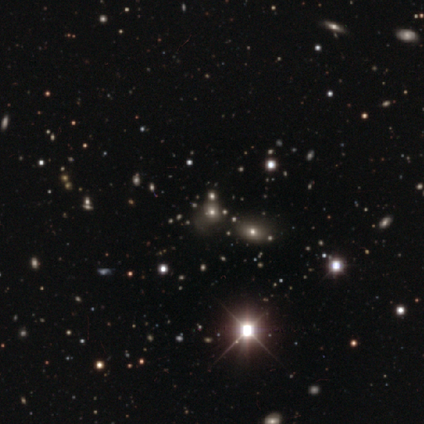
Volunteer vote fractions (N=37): Smooth or featured? 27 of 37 (73%) said star or artifact.